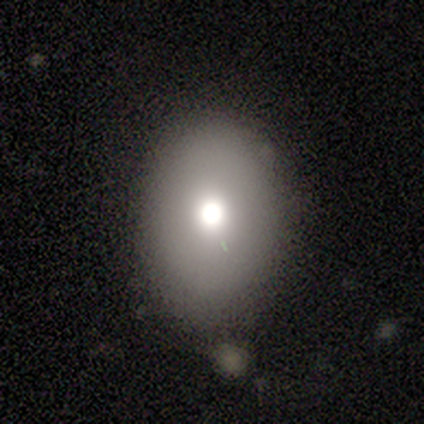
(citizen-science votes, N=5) Volunteers were most divided on "how rounded": in between: 75%, round: 25%, cigar-shaped: 0%. More confident: smooth or featured — smooth (80%); merging — none (75%).